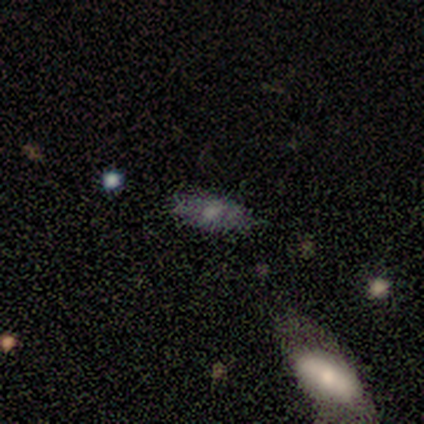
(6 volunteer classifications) smooth 83%, star or artifact 17%, featured or disk 0%. Down the decision tree: how rounded — in between (80%); merging — none (60%).